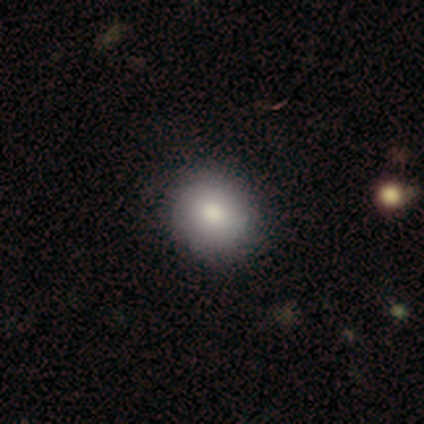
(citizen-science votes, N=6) smooth 67%, featured or disk 17%, star or artifact 17%. Down the decision tree: how rounded — round (100%); merging — none (100%).